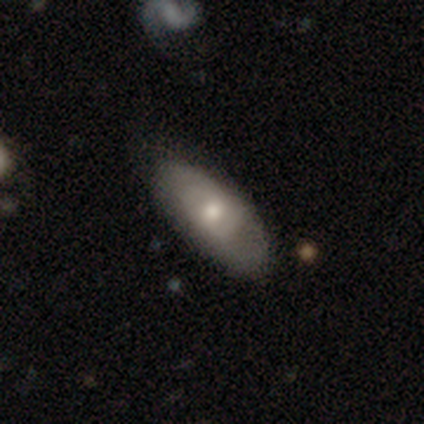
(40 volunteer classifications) Volunteers were most divided on "smooth or featured": smooth: 62%, featured or disk: 35%, star or artifact: 2%. More confident: how rounded — in between (92%); merging — none (59%).